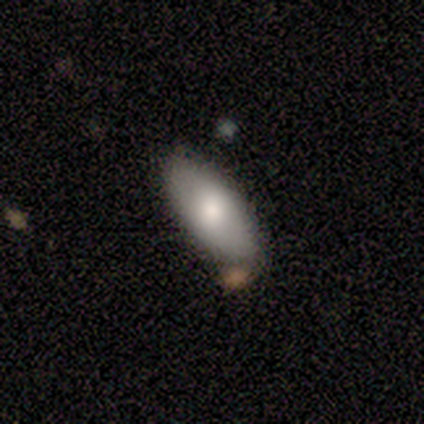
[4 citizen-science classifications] Q: Smooth or featured?
A: smooth (100%)
Q: How rounded?
A: in between (100%)
Q: Merging?
A: none (50%); runner-up: minor disturbance (25%)